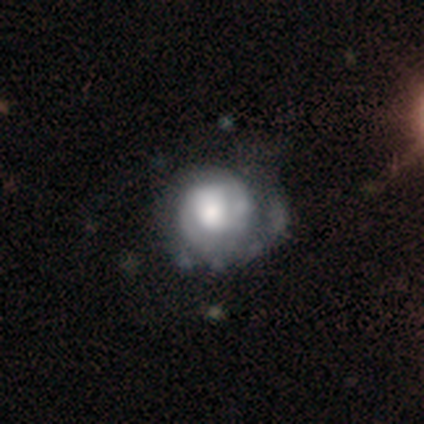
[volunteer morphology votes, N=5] featured or disk 60%, smooth 20%, star or artifact 20%. Down the decision tree: edge-on disk — no (100%); bar — no (100%); spiral arms — yes (67%); spiral arm count — 2 (100%); spiral winding — tight (100%); bulge size — dominant (67%); merging — minor disturbance (75%).